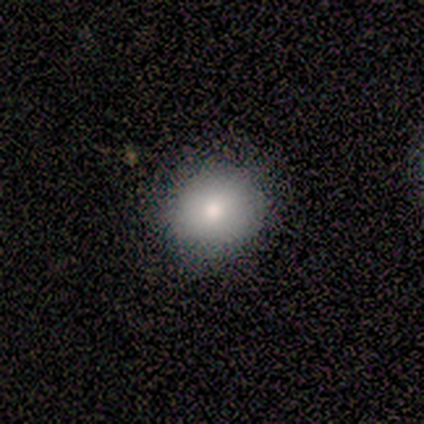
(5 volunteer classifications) smooth_or_featured: smooth (p=1.00)
how_rounded: round (p=0.80) [alt: in between p=0.20]
merging: none (p=0.80) [alt: minor disturbance p=0.20]